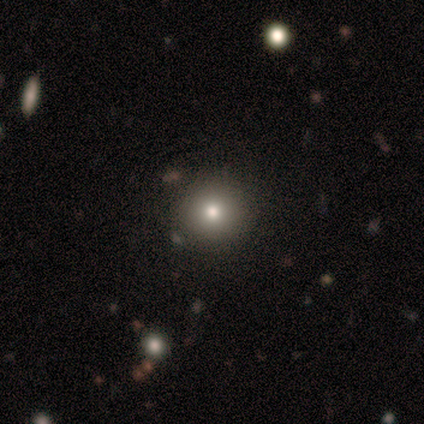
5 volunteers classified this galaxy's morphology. Volunteers were most divided on "smooth or featured": smooth: 60%, featured or disk: 40%, star or artifact: 0%. More confident: how rounded — round (100%); merging — none (80%).